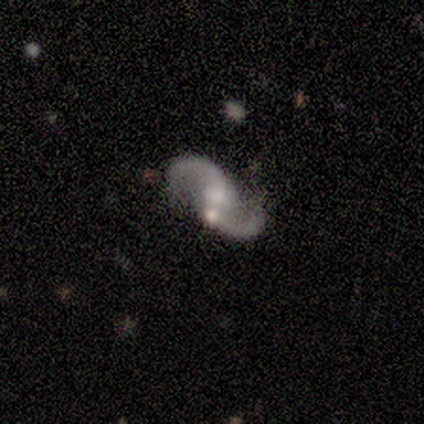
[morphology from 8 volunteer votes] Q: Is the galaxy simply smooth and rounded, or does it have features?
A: featured or disk — 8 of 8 (100%).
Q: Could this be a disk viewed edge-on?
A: no — 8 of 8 (100%).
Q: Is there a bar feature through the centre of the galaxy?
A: no — 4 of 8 (50%).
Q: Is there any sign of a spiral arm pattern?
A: yes — 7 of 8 (88%).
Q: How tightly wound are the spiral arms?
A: loose — 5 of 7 (71%).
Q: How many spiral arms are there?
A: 2 — 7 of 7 (100%).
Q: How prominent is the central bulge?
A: small — 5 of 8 (62%).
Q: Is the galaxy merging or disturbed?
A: none — 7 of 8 (88%).